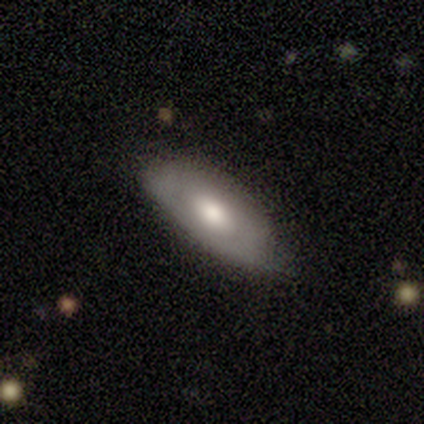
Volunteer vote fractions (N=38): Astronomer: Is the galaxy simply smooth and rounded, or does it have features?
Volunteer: featured or disk — 50% (runner-up: smooth, 47%).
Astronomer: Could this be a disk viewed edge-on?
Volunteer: no — 58% (runner-up: yes, 42%).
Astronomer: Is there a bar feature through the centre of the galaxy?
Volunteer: no — 91%.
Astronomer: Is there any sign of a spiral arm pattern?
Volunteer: no — 91%.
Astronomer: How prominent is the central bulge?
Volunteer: moderate — 64%.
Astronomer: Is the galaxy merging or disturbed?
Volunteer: none — 65%.